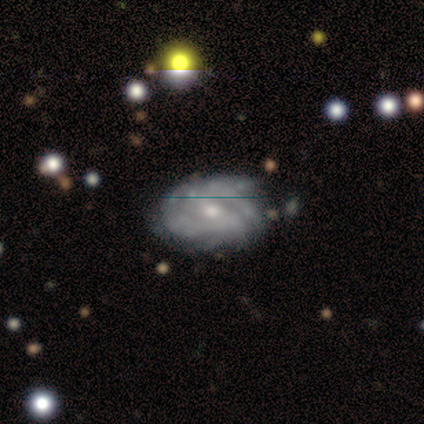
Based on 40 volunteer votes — Smooth or featured? featured or disk (82%)
Edge-on disk? no (91%)
Bar? weak (47%, tied with no)
Spiral arms? yes (90%)
Spiral winding? tight (56%)
Spiral arm count? can't tell (67%)
Bulge size? small (50%)
Merging? none (56%)